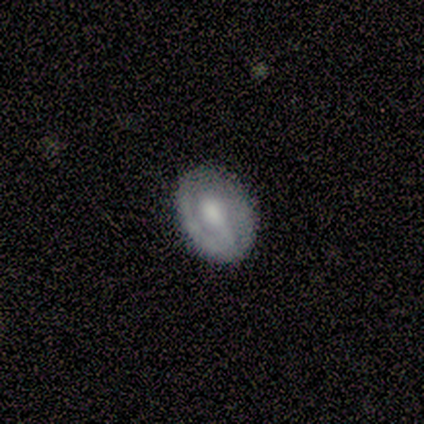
This is clearly a featured or disk galaxy (80%). It is clearly not viewed edge-on (100%). Bar: likely weak (75%). Spiral arm pattern: likely yes (75%). Spiral arm count: likely 1 (67%). Spiral winding: marginally tight (33%, tied with medium and loose). Central bulge: clearly moderate (100%). Merging: clearly none (100%).